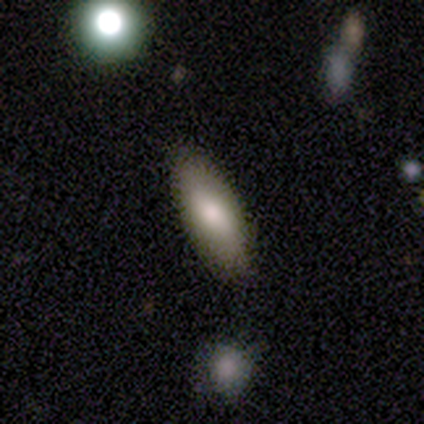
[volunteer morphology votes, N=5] Smooth or featured?
  - smooth: 100% *
  - featured or disk: 0%
  - star or artifact: 0%
How rounded?
  - in between: 80% *
  - cigar-shaped: 20%
  - round: 0%
Merging?
  - none: 100% *
  - minor disturbance: 0%
  - major disturbance: 0%
  - merger: 0%